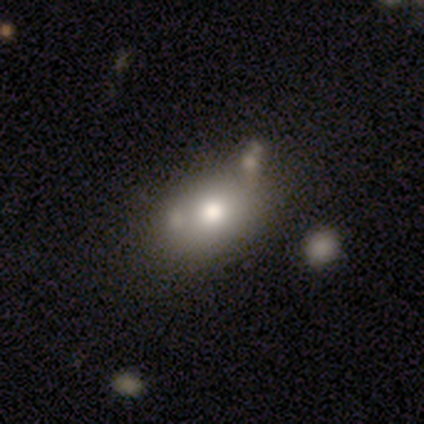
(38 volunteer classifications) This appears to be a smooth galaxy with no disk features (71%) that is in between round and cigar-shaped (74%). Merging: none (49%).